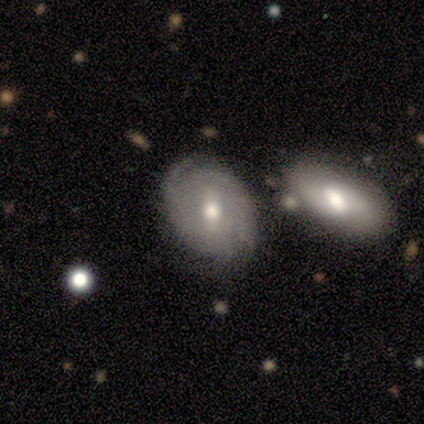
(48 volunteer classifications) This is likely a featured or disk galaxy (69%). It is clearly not viewed edge-on (94%). Bar: possibly weak (52%). Spiral arm pattern: clearly yes (90%). Spiral arm count: marginally 2 (43%, tied with can't tell). Spiral winding: clearly tight (82%). Central bulge: clearly moderate (84%). Merging: possibly none (55%).